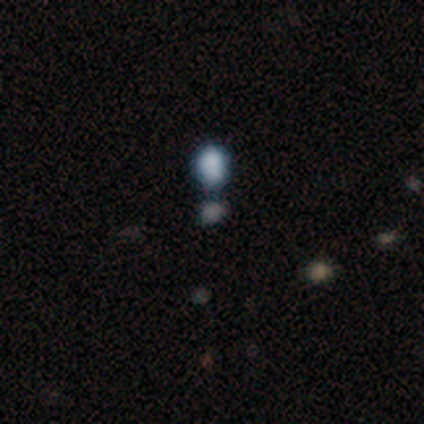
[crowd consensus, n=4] Overall: smooth (75%). How rounded: in between (67%; round 33%). Merging: none (33%, tied with minor disturbance and merger).